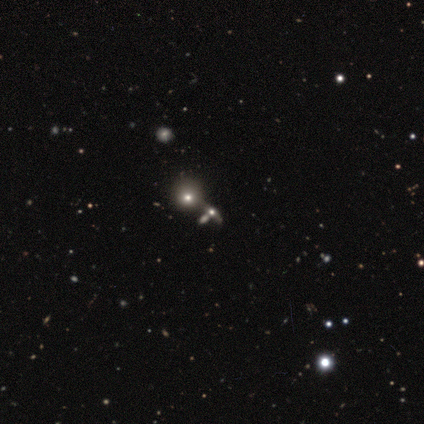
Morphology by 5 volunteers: smooth_or_featured: smooth (p=0.60) [alt: star or artifact p=0.40]
how_rounded: round (p=0.67) [alt: in between p=0.33]
merging: none (p=0.67) [alt: merger p=0.33]